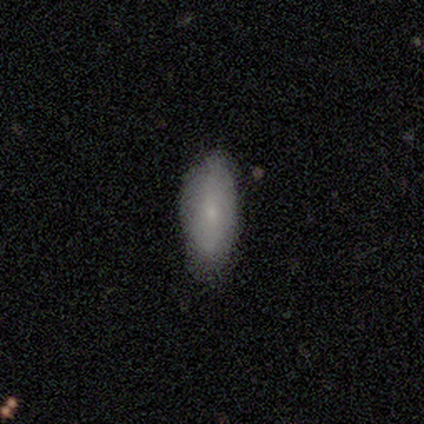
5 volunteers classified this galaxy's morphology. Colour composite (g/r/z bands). It shows a smooth galaxy with no disk features (80%) that is in between round and cigar-shaped (100%). Merging: none (75%).